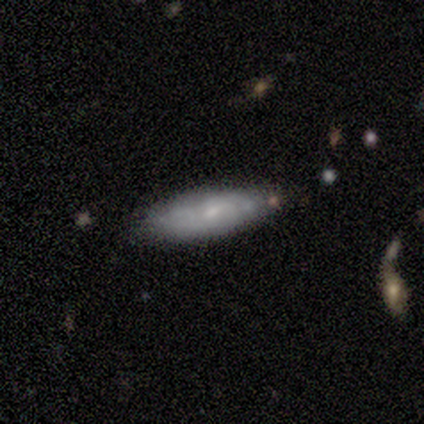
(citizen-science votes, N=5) Smooth or featured?
  - smooth: 60% *
  - featured or disk: 40%
  - star or artifact: 0%
How rounded?
  - cigar-shaped: 100% *
  - round: 0%
  - in between: 0%
Merging?
  - none: 60% *
  - minor disturbance: 40%
  - major disturbance: 0%
  - merger: 0%